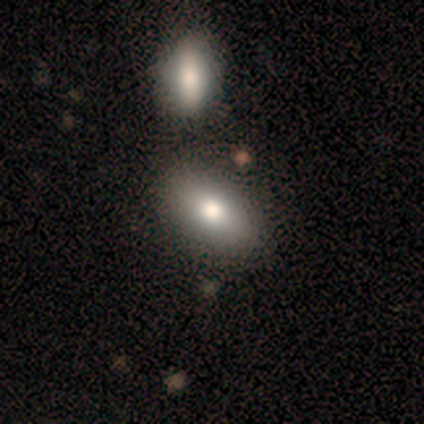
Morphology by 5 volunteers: smooth 100%, featured or disk 0%, star or artifact 0%. Down the decision tree: how rounded — in between (100%); merging — none (60%).